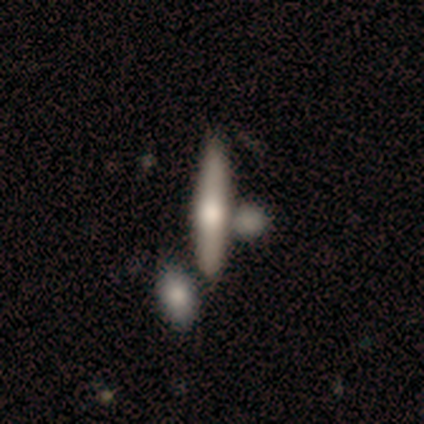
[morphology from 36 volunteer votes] Smooth or featured?
  - smooth: 50% *
  - featured or disk: 39%
  - star or artifact: 11%
How rounded?
  - cigar-shaped: 94% *
  - in between: 6%
  - round: 0%
Merging?
  - none: 62% *
  - merger: 22%
  - minor disturbance: 12%
  - major disturbance: 3%